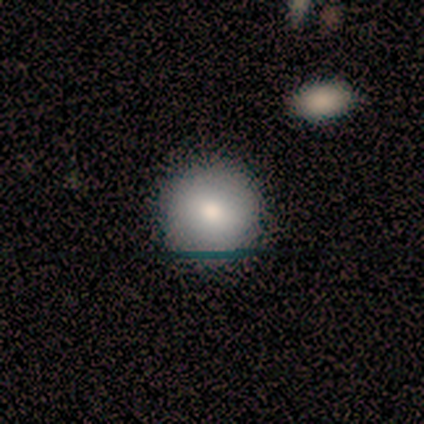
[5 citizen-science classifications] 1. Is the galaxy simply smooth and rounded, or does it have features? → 60% smooth, 20% featured or disk, 20% star or artifact.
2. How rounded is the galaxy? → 100% round, 0% in between, 0% cigar-shaped.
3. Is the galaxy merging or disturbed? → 100% none, 0% minor disturbance, 0% major disturbance, 0% merger.